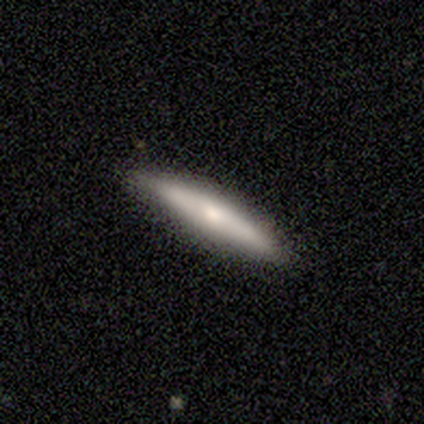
Morphology: type=featured or disk (62%); edge-on=yes (80%); edge-on bulge=rounded (62%); merging=none (81%).